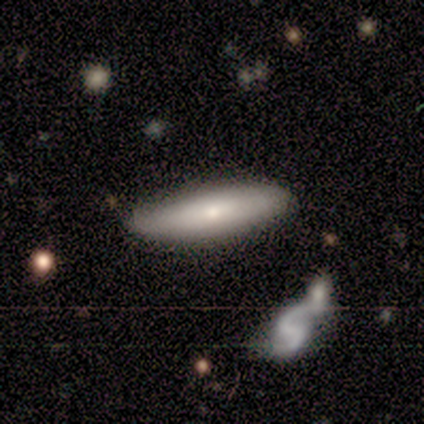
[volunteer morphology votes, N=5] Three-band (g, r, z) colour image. It shows a featured or disk galaxy (80%) with a strong bar (33%, tied with weak and no), 2 (100%) loose (100%) spiral arms (67%) and a moderate central bulge (33%, tied with small and none). Merging: none (80%).